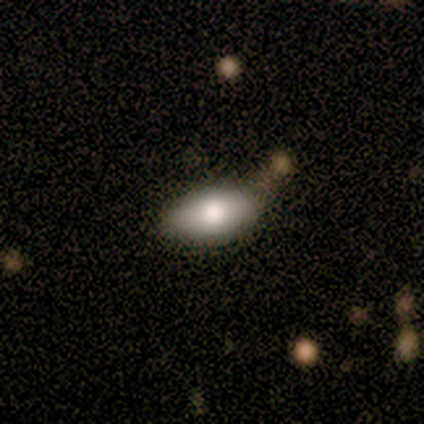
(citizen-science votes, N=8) smooth_or_featured: smooth (p=0.88) [alt: featured or disk p=0.12]
how_rounded: in between (p=0.86) [alt: round p=0.14]
merging: none (p=0.62) [alt: minor disturbance p=0.25]